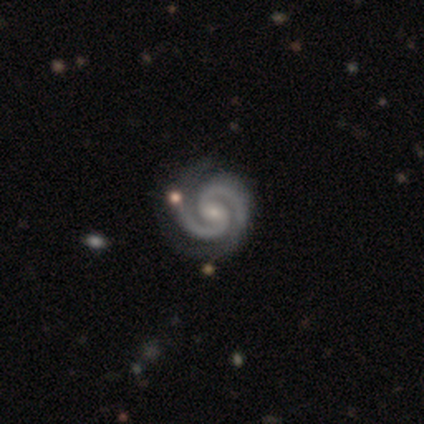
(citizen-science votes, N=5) Morphology: type=featured or disk (80%); edge-on=no (100%); bar=no (50%); spiral arms=yes (100%); winding=tight (75%); arm count=2 (100%); bulge=none (50%); merging=none (80%).